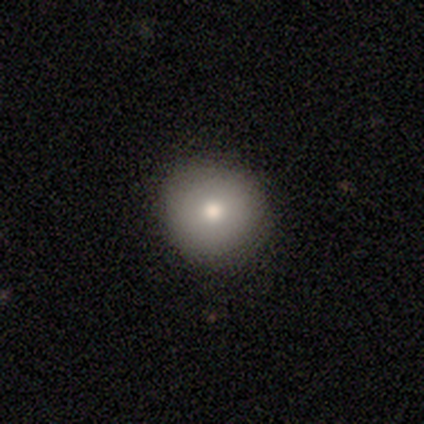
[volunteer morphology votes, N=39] smooth 77%, featured or disk 18%, star or artifact 5%. Down the decision tree: how rounded — round (93%); merging — none (84%).